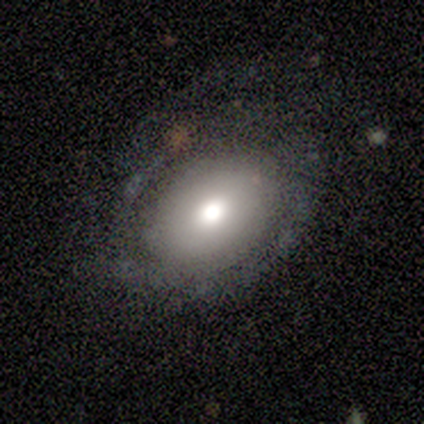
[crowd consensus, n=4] Volunteers were most divided on "how rounded": in between: 67%, round: 33%, cigar-shaped: 0%. More confident: smooth or featured — smooth (75%); merging — none (75%).